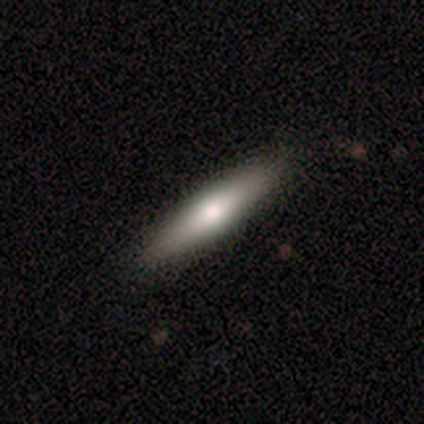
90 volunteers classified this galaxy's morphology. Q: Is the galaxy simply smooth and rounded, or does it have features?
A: smooth — 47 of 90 (52%).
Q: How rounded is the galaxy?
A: cigar-shaped — 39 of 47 (83%).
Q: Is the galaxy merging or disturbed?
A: none — 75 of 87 (86%).